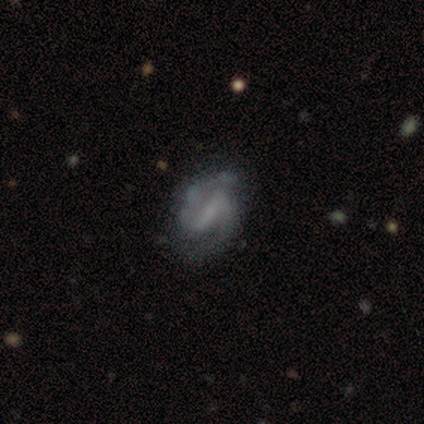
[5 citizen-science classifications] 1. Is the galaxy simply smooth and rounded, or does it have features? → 40% smooth (tied), 40% featured or disk (tied), 20% star or artifact.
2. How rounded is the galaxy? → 50% round (tied), 50% in between (tied), 0% cigar-shaped.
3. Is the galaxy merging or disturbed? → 75% none, 25% major disturbance, 0% minor disturbance, 0% merger.